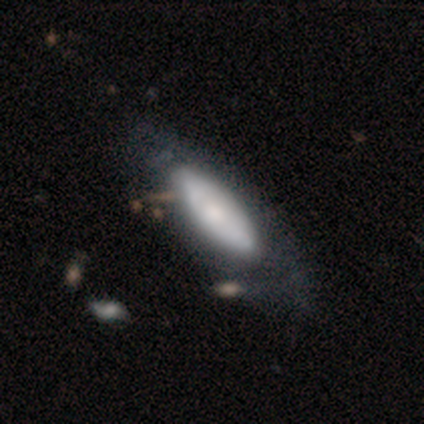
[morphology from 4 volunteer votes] Smooth or featured: smooth — 50% (tied with featured or disk — 50%)
How rounded: in between — 100%
Merging: none — 75% (minor disturbance — 25%)